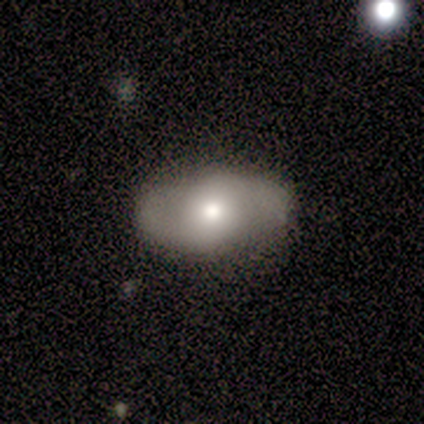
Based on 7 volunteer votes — Smooth or featured: smooth — 43% (tied with featured or disk — 43%)
How rounded: in between — 67% (round — 33%)
Merging: none — 83% (minor disturbance — 17%)